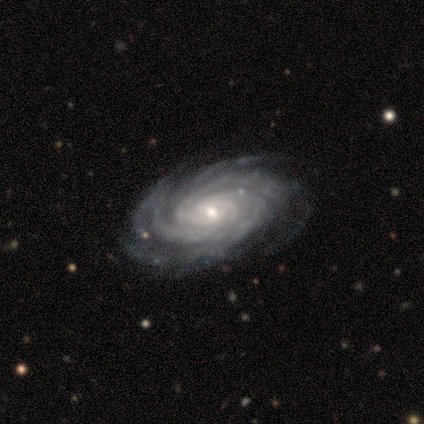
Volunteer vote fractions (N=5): Smooth or featured?
  - featured or disk: 100% *
  - smooth: 0%
  - star or artifact: 0%
Edge-on disk?
  - no: 100% *
  - yes: 0%
Bar?
  - weak: 60% *
  - no: 40%
  - strong: 0%
Spiral arms?
  - yes: 100% *
  - no: 0%
Spiral winding?
  - tight: 80% *
  - medium: 20%
  - loose: 0%
Spiral arm count?
  - 3: 40% *
  - 4: 20%
  - more than 4: 20%
  - can't tell: 20%
  - 1: 0%
  - 2: 0%
Bulge size?
  - large: 40% * (tied)
  - small: 40% * (tied)
  - moderate: 20%
  - dominant: 0%
  - none: 0%
Merging?
  - none: 80% *
  - minor disturbance: 20%
  - major disturbance: 0%
  - merger: 0%